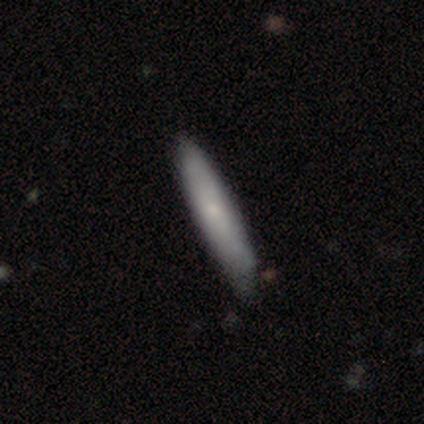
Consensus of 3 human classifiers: Smooth or featured? smooth (100%)
How rounded? cigar-shaped (67%)
Merging? minor disturbance (67%)